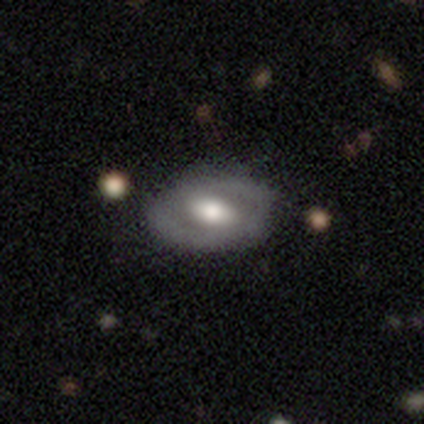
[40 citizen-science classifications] smooth-or-featured: featured or disk: 62% | smooth: 35% | star or artifact: 2%
  disk-edge-on: no: 100% | yes: 0%
    bar: strong: 40% | no: 36% | weak: 24%
    has-spiral-arms: no: 72% | yes: 28%
    bulge-size: moderate: 56% | large: 32% | small: 8% | none: 4% | dominant: 0%
  merging: none: 56% | minor disturbance: 15% | major disturbance: 3% | merger: 0%